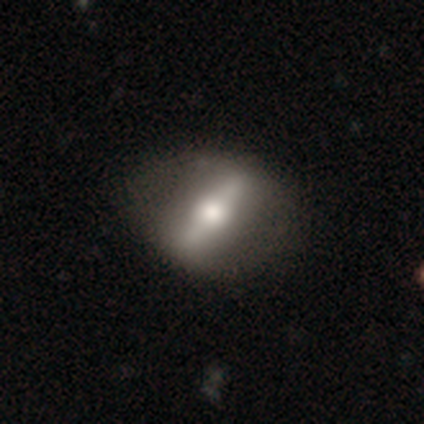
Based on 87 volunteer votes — smooth_or_featured: featured or disk (p=0.75) [alt: smooth p=0.21]
disk_edge_on: no (p=0.57) [alt: yes p=0.43]
bar: strong (p=0.84) [alt: weak p=0.11]
has_spiral_arms: no (p=0.84) [alt: yes p=0.16]
bulge_size: moderate (p=0.65) [alt: large p=0.27]
merging: none (p=0.80) [alt: minor disturbance p=0.14]